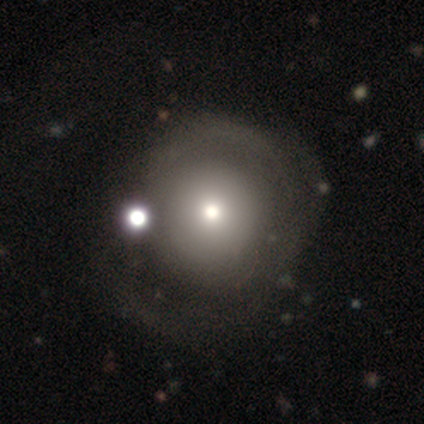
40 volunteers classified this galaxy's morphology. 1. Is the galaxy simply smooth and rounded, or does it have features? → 50% featured or disk, 48% smooth, 2% star or artifact.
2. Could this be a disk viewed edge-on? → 100% no, 0% yes.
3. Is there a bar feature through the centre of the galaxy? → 95% no, 5% strong, 0% weak.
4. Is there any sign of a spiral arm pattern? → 65% no, 35% yes.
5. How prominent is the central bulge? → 30% moderate (tied), 30% small (tied), 25% dominant, 15% large, 0% none.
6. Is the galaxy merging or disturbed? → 28% merger, 21% major disturbance, 15% none, 15% minor disturbance.